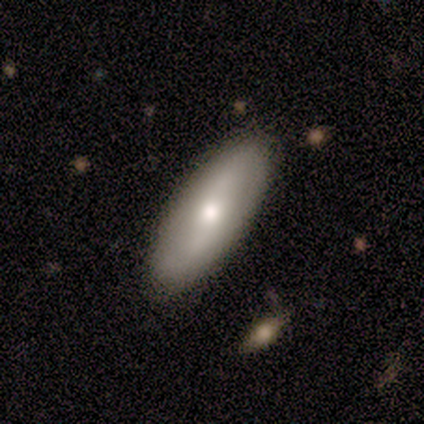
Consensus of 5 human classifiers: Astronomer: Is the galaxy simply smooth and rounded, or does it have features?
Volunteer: smooth — 60%.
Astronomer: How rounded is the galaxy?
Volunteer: in between — 100%.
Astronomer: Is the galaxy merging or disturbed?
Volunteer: none — 100%.